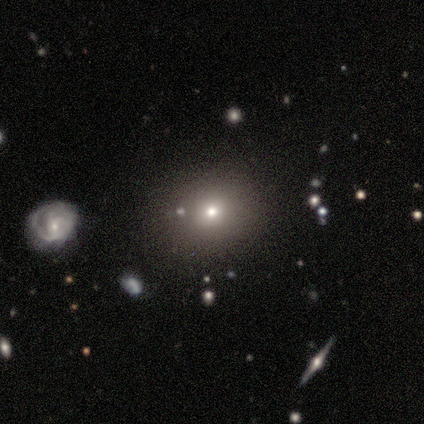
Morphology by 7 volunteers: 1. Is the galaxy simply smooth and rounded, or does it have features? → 86% smooth, 14% featured or disk, 0% star or artifact.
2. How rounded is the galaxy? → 83% round, 17% in between, 0% cigar-shaped.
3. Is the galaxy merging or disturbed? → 100% none, 0% minor disturbance, 0% major disturbance, 0% merger.